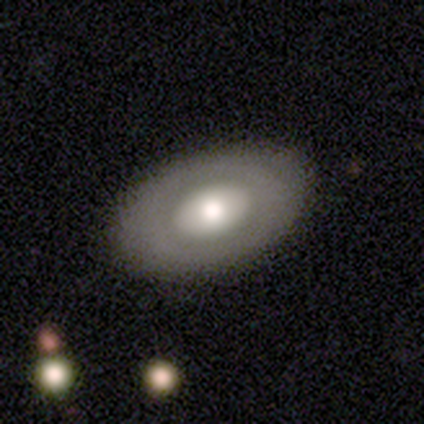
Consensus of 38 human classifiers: smooth 58%, featured or disk 42%, star or artifact 0%. Down the decision tree: how rounded — in between (95%); merging — none (82%).